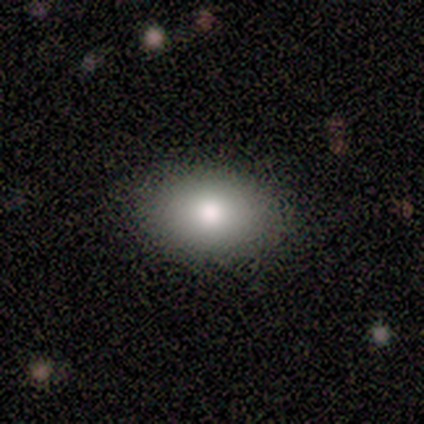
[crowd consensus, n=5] Consensus on every question: smooth or featured — smooth (100%); how rounded — in between (100%); merging — none (100%).